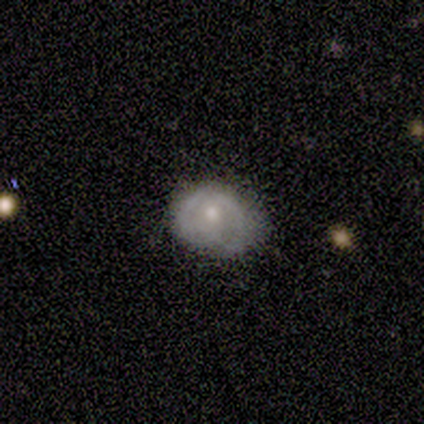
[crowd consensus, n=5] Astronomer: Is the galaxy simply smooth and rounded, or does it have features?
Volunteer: smooth — 60% (runner-up: featured or disk, 40%).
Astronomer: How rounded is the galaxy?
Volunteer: round — 67%.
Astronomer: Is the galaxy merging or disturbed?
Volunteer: none — 60% (runner-up: minor disturbance, 40%).